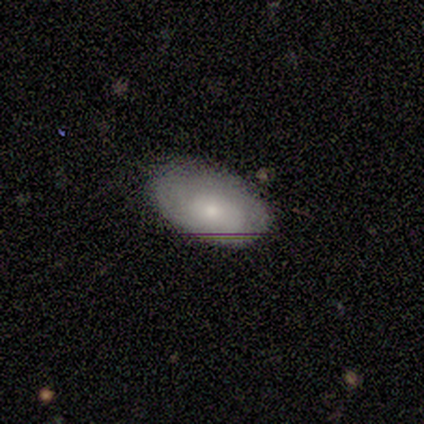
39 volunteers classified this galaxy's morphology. smooth-or-featured: smooth: 56% | featured or disk: 33% | star or artifact: 10%
  how-rounded: in between: 86% | round: 14% | cigar-shaped: 0%
  merging: none: 71% | minor disturbance: 23% | major disturbance: 6% | merger: 0%